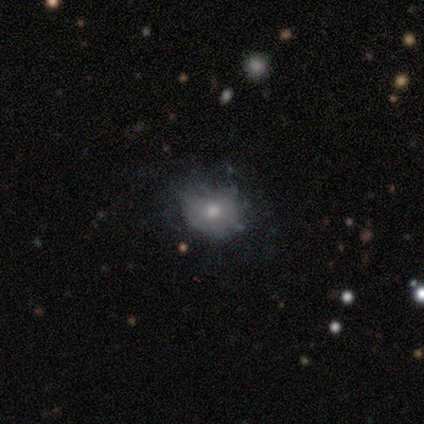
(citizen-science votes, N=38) Morphology: type=smooth (58%); roundness=round (59%); merging=none (52%).